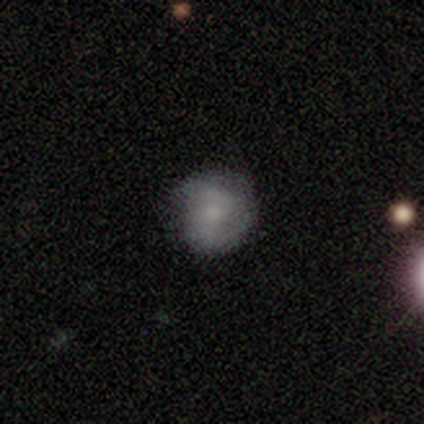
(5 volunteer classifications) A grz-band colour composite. It shows a featured or disk galaxy (80%) with no bar (67%), 2 (100%) tight (100%) spiral arms (67%) and a moderate central bulge (33%, tied with small and none). Merging: none (40%, tied with minor disturbance).